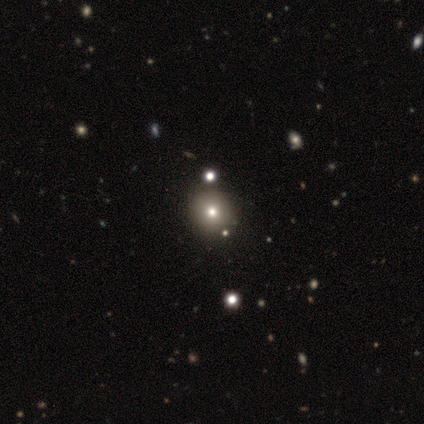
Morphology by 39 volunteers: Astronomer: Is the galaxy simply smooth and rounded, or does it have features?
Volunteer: smooth — 64%.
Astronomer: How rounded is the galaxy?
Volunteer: round — 100%.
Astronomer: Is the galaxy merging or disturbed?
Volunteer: none — 50%.